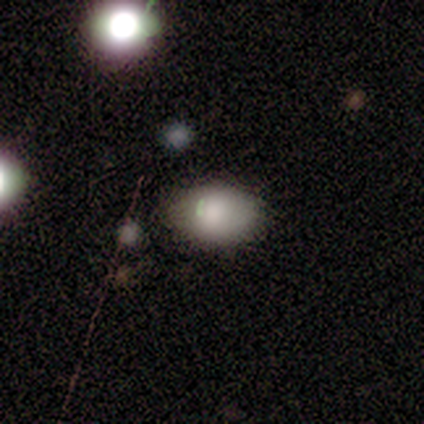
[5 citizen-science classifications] smooth-or-featured: smooth: 100% | featured or disk: 0% | star or artifact: 0%
  how-rounded: in between: 80% | round: 20% | cigar-shaped: 0%
  merging: none: 80% | minor disturbance: 20% | major disturbance: 0% | merger: 0%